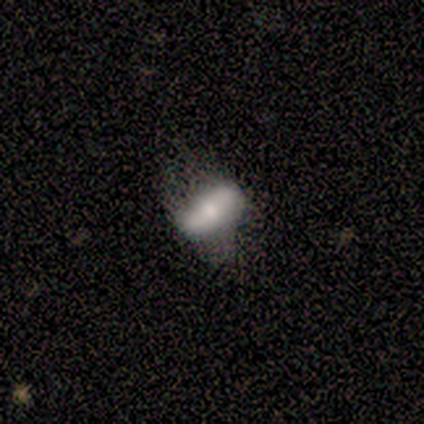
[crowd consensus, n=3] This appears to be a featured or disk galaxy (67%) with a strong bar (50%, tied with no), 2 (100%) loose (100%) spiral arms (50%, tied with no) and a small central bulge (50%, tied with none). Merging: none (67%).